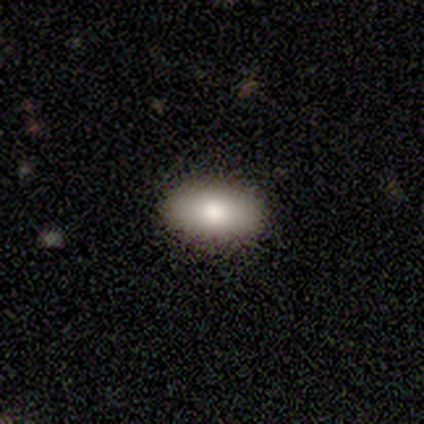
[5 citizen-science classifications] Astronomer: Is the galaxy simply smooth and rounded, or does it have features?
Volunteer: smooth — 100%.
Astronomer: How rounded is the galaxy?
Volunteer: in between — 100%.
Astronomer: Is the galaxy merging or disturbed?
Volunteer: none — 100%.